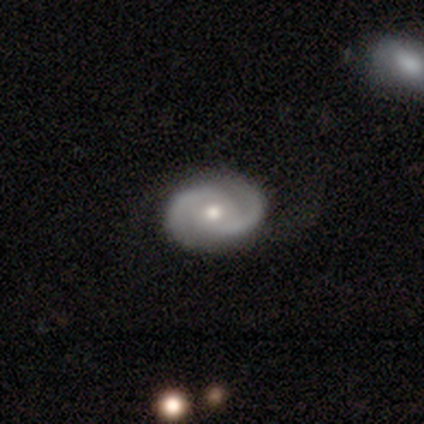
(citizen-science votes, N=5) Smooth or featured: featured or disk — 100%
Edge-on disk: no — 100%
Bar: weak — 60% (no — 40%)
Spiral arms: yes — 100%
Spiral winding: tight — 60% (medium — 40%)
Spiral arm count: 2 — 80% (1 — 20%)
Bulge size: moderate — 60% (small — 40%)
Merging: none — 80% (major disturbance — 20%)